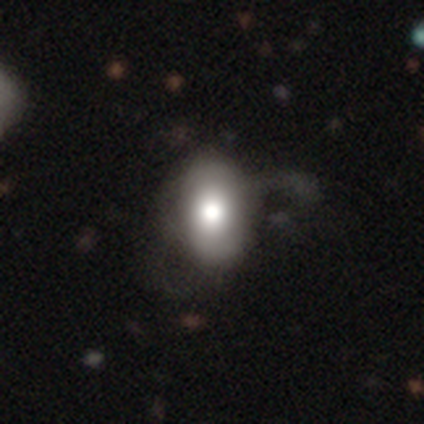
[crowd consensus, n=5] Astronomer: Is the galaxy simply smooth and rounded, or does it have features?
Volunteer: smooth — 80%.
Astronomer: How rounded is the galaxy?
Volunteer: in between — 100%.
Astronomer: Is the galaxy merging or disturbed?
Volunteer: none — 75%.